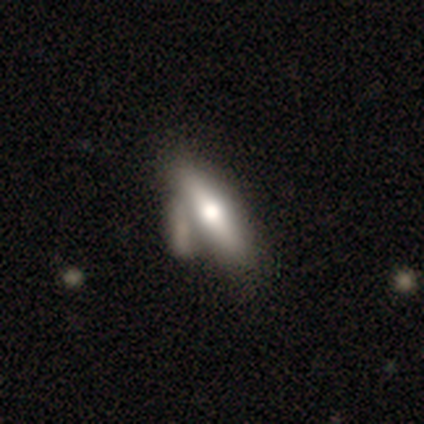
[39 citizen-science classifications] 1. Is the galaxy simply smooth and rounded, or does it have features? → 59% featured or disk, 41% smooth, 0% star or artifact.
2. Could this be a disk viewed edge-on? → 78% yes, 22% no.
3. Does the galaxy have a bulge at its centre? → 94% rounded, 6% boxy, 0% none.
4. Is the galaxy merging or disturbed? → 33% none, 31% merger, 21% minor disturbance, 0% major disturbance.